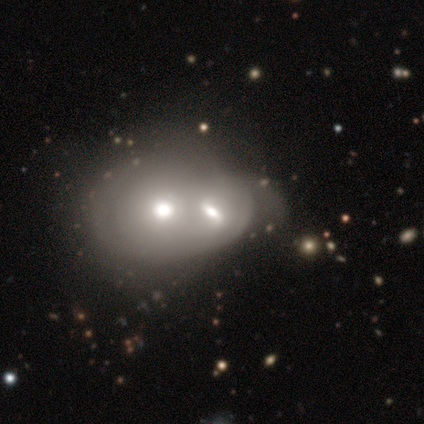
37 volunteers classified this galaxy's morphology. smooth_or_featured: smooth (p=0.59) [alt: featured or disk p=0.32]
how_rounded: in between (p=0.55) [alt: round p=0.45]
merging: merger (p=0.71) [alt: major disturbance p=0.15]